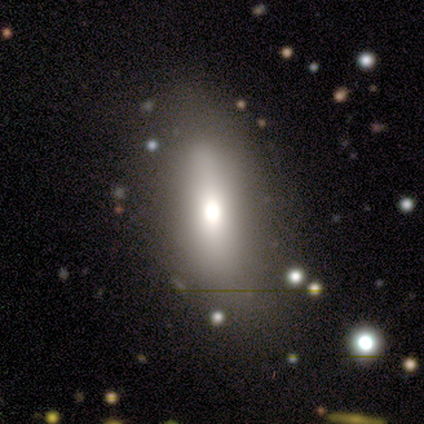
This is likely a featured or disk galaxy (75%). It is likely not viewed edge-on (67%). Bar: possibly strong (50%, tied with weak). Spiral arm pattern: possibly yes (50%, tied with no). Spiral arm count: clearly 4 (100%). Spiral winding: clearly medium (100%). Central bulge: clearly large (100%). Merging: likely minor disturbance (75%).